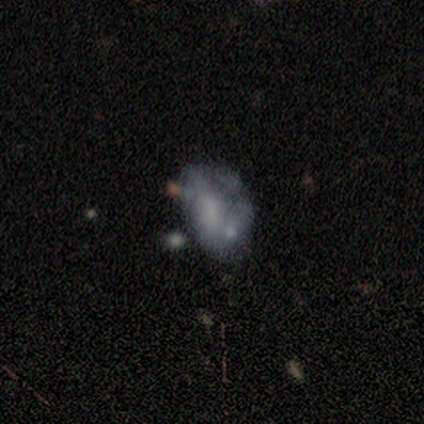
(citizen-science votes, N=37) Volunteers were most divided on "bulge size": none: 43%, small: 35%, moderate: 17%, large: 4%, dominant: 0%. Remaining: edge-on disk — no (96%); bar — no (83%); smooth or featured — featured or disk (65%); spiral arms — no (61%); merging — none (38%).